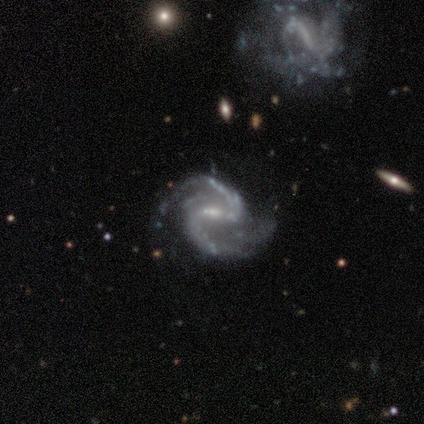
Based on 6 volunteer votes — This appears to be a featured or disk galaxy (100%) with a strong bar (67%), 2 (100%) medium (67%) spiral arms (100%) and a small central bulge (83%). Merging: none (83%).